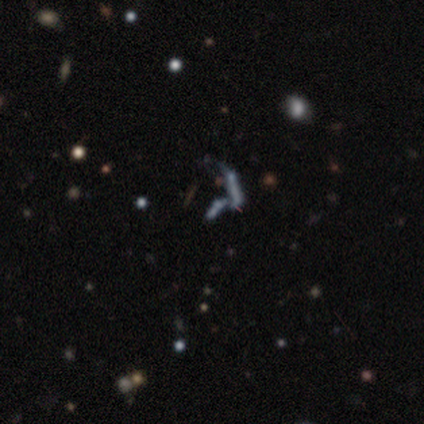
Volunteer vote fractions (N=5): Overall: featured or disk (40%, tied with star or artifact). Edge-on disk: no (100%). Bar: no (100%). Spiral arms: no (100%). Bulge size: small (50%, tied with none). Merging: merger (100%).